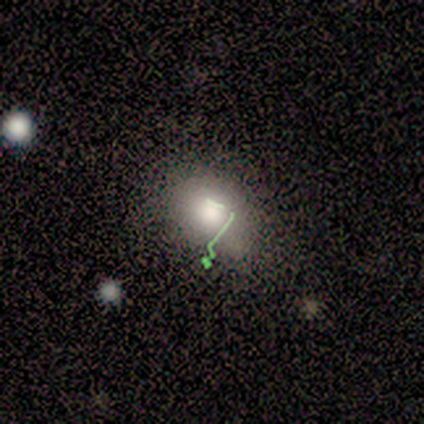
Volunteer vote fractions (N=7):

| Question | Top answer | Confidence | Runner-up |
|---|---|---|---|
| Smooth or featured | smooth | 57% | star or artifact (43%) |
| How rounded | round | 50% | tied: in between (50%) |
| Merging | none | 75% | minor disturbance (25%) |